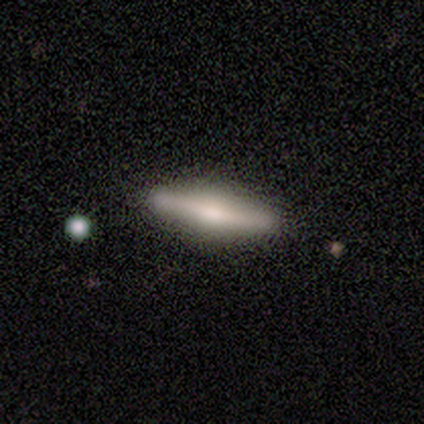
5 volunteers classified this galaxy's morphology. Volunteers were most divided on "smooth or featured": smooth: 60%, featured or disk: 40%, star or artifact: 0%. More confident: merging — none (80%); how rounded — cigar-shaped (67%).